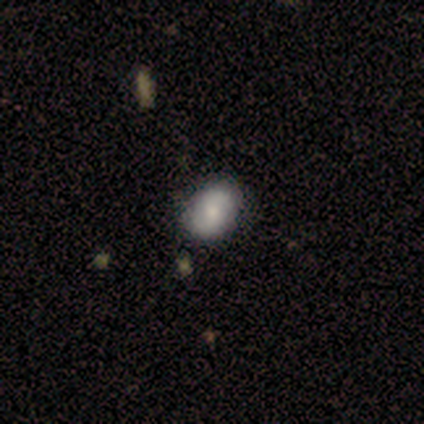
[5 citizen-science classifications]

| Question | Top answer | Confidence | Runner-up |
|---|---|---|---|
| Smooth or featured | smooth | 60% | featured or disk (40%) |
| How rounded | round | 67% | in between (33%) |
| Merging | none | 100% | — |